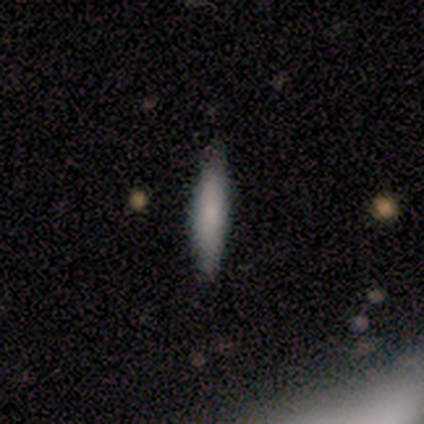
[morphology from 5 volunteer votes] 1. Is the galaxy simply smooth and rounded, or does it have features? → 40% smooth (tied), 40% star or artifact (tied), 20% featured or disk.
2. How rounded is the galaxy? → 50% in between (tied), 50% cigar-shaped (tied), 0% round.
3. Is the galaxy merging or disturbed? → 100% none, 0% minor disturbance, 0% major disturbance, 0% merger.